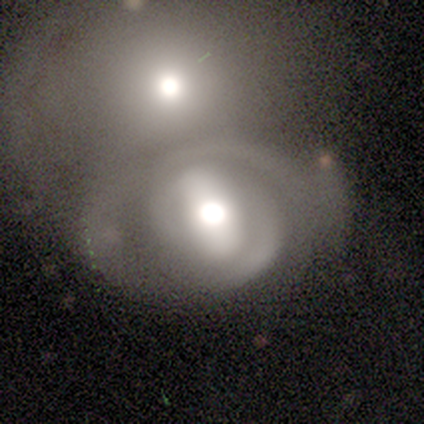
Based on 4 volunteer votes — A featured or disk galaxy (75%) with a strong bar (67%), 2 (100%) tight (67%) spiral arms (100%) and a dominant central bulge (33%, tied with large and moderate).

Vote fractions:
- Smooth or featured? featured or disk: 75% / smooth: 25% / star or artifact: 0%
- Edge-on disk? no: 100% / yes: 0%
- Bar? strong: 67% / no: 33% / weak: 0%
- Spiral arms? yes: 100% / no: 0%
- Spiral winding? tight: 67% / medium: 33% / loose: 0%
- Spiral arm count? 2: 100% / 1: 0% / 3: 0% / 4: 0% / more than 4: 0% / can't tell: 0%
- Bulge size? dominant: 33% (tied) / large: 33% (tied) / moderate: 33% (tied) / small: 0% / none: 0%
- Merging? merger: 75% / none: 25% / minor disturbance: 0% / major disturbance: 0%